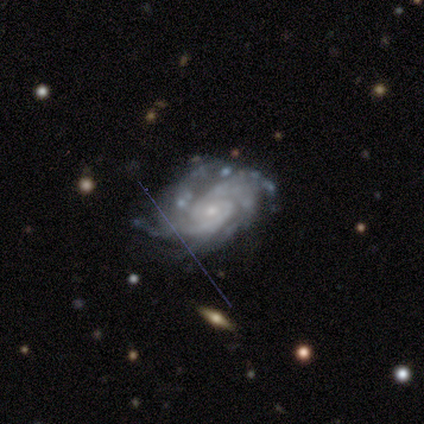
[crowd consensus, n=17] Smooth or featured?
  - featured or disk: 94% *
  - star or artifact: 6%
  - smooth: 0%
Edge-on disk?
  - no: 100% *
  - yes: 0%
Bar?
  - no: 75% *
  - weak: 19%
  - strong: 6%
Spiral arms?
  - yes: 100% *
  - no: 0%
Spiral winding?
  - tight: 75% *
  - medium: 19%
  - loose: 6%
Spiral arm count?
  - 3: 38% *
  - 2: 31%
  - can't tell: 19%
  - 4: 12%
  - 1: 0%
  - more than 4: 0%
Bulge size?
  - small: 81% *
  - moderate: 19%
  - dominant: 0%
  - large: 0%
  - none: 0%
Merging?
  - none: 56% *
  - minor disturbance: 25%
  - major disturbance: 19%
  - merger: 0%